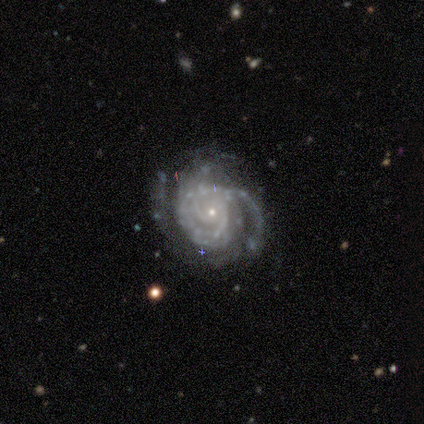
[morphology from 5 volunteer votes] Smooth or featured?
  - featured or disk: 100% *
  - smooth: 0%
  - star or artifact: 0%
Edge-on disk?
  - no: 100% *
  - yes: 0%
Bar?
  - no: 60% *
  - weak: 40%
  - strong: 0%
Spiral arms?
  - yes: 100% *
  - no: 0%
Spiral winding?
  - tight: 80% *
  - medium: 20%
  - loose: 0%
Spiral arm count?
  - 1: 20% * (tied)
  - 2: 20% * (tied)
  - 3: 20% * (tied)
  - 4: 20% * (tied)
  - can't tell: 20% * (tied)
  - more than 4: 0%
Bulge size?
  - small: 80% *
  - moderate: 20%
  - dominant: 0%
  - large: 0%
  - none: 0%
Merging?
  - none: 60% *
  - minor disturbance: 20%
  - major disturbance: 20%
  - merger: 0%